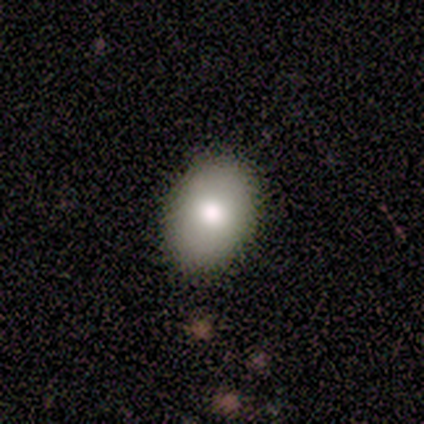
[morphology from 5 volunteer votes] Smooth or featured? 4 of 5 (80%) said smooth. How rounded? 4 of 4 (100%) said in between. Merging? 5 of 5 (100%) said none.